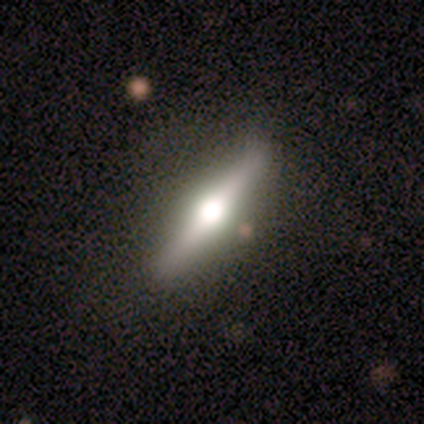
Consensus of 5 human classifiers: Smooth or featured? featured or disk (80%)
Edge-on disk? yes (100%)
Edge-on bulge? rounded (100%)
Merging? none (100%)